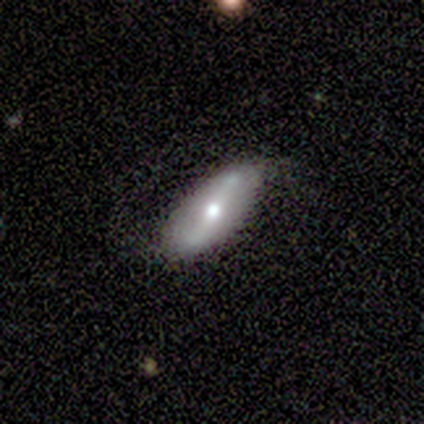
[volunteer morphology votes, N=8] featured or disk 62%, smooth 38%, star or artifact 0%. Down the decision tree: edge-on disk — no (100%); bar — strong (60%); spiral arms — yes (80%); spiral arm count — 2 (100%); spiral winding — medium (50%, tied with loose); bulge size — moderate (60%); merging — none (75%).